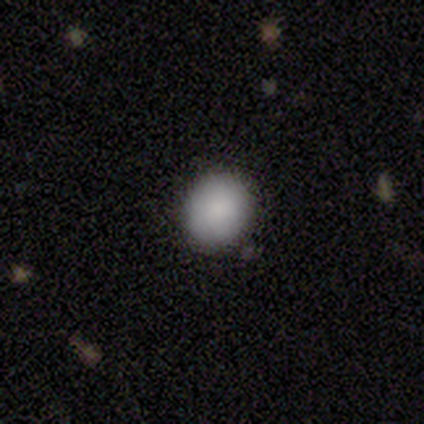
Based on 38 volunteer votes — Smooth or featured?
  - smooth: 89% *
  - star or artifact: 8%
  - featured or disk: 3%
How rounded?
  - round: 79% *
  - in between: 21%
  - cigar-shaped: 0%
Merging?
  - none: 91% *
  - minor disturbance: 9%
  - major disturbance: 0%
  - merger: 0%